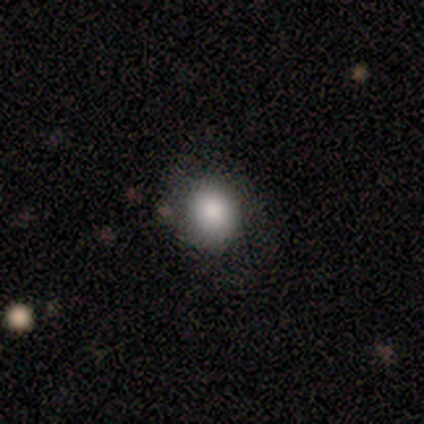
Smooth or featured? 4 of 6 (67%) said smooth. How rounded? 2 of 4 (50%, tied with in between) said round. Merging? 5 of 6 (83%) said none.